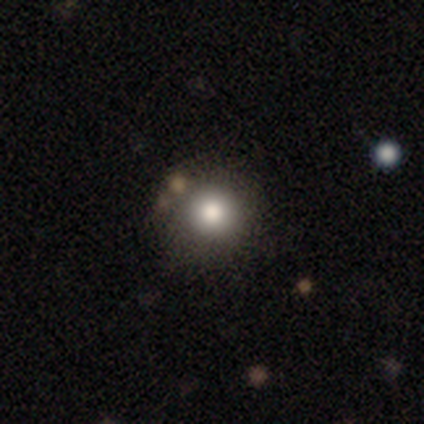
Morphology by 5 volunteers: A smooth galaxy with no disk features (100%) that is round (100%).

Vote fractions:
- Smooth or featured? smooth: 100% / featured or disk: 0% / star or artifact: 0%
- How rounded? round: 100% / in between: 0% / cigar-shaped: 0%
- Merging? none: 80% / minor disturbance: 20% / major disturbance: 0% / merger: 0%